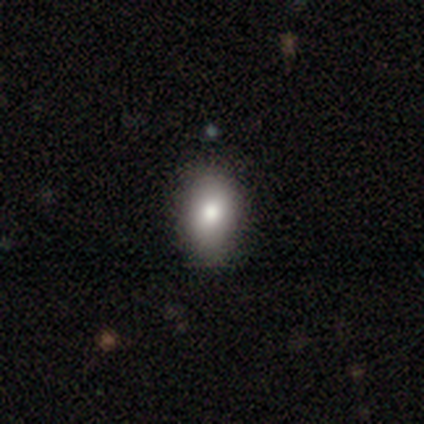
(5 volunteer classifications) This appears to be a smooth galaxy with no disk features (80%) that is in between round and cigar-shaped (100%). Merging: none (100%).